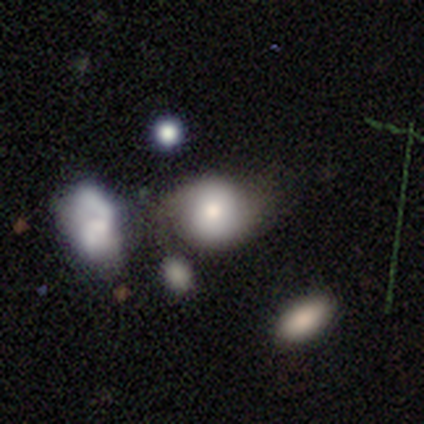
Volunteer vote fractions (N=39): Volunteers were most divided on "merging": none: 43%, minor disturbance: 29%, merger: 17%, major disturbance: 11%. More confident: how rounded — round (83%); smooth or featured — smooth (62%).